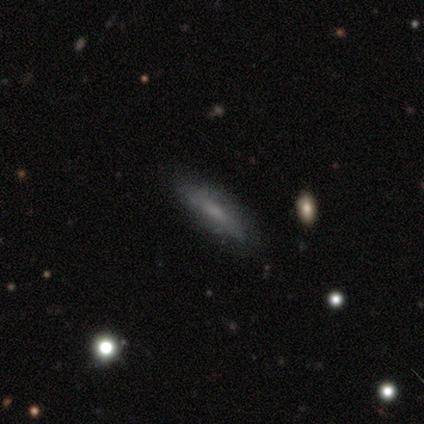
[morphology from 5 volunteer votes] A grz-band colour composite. It shows a featured or disk galaxy (80%) viewed edge-on (75%) with no central bulge (67%). Merging: none (100%).